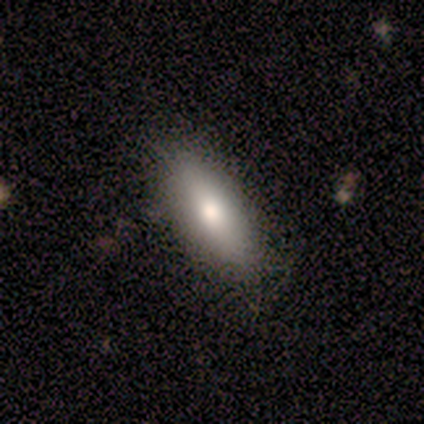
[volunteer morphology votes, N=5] smooth_or_featured: smooth (p=1.00)
how_rounded: in between (p=1.00)
merging: none (p=1.00)